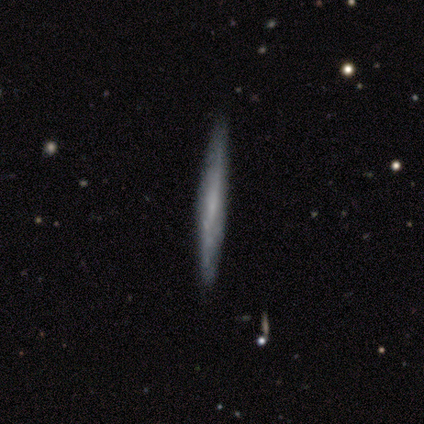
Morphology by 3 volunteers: Q: Smooth or featured?
A: featured or disk (67%); runner-up: smooth (33%)
Q: Edge-on disk?
A: yes (100%)
Q: Edge-on bulge?
A: none (100%)
Q: Merging?
A: none (100%)